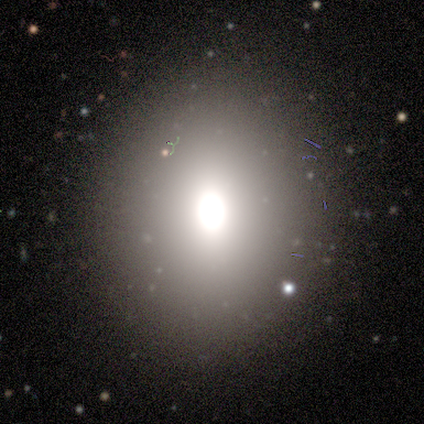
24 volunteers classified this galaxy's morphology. Volunteers were most divided on "how rounded" (2-way tie): round: 50%, in between: 50%, cigar-shaped: 0%. More confident: merging — none (72%); smooth or featured — smooth (50%).